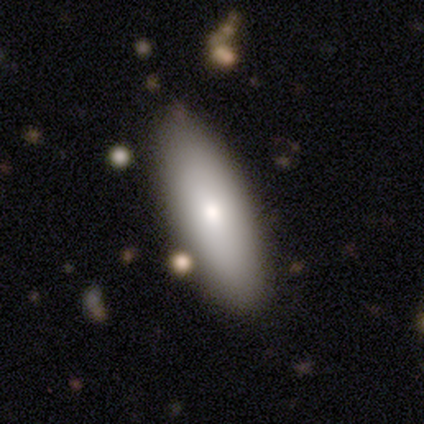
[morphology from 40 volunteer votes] smooth_or_featured: smooth (p=0.75) [alt: featured or disk p=0.23]
how_rounded: in between (p=0.77) [alt: cigar-shaped p=0.23]
merging: none (p=0.49) [alt: merger p=0.13]